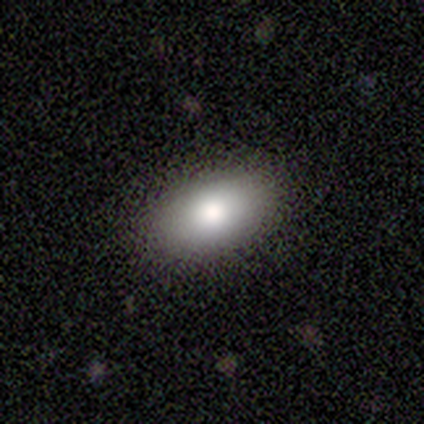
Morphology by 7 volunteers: Smooth or featured: smooth — 86% (star or artifact — 14%)
How rounded: in between — 100%
Merging: none — 83% (minor disturbance — 17%)